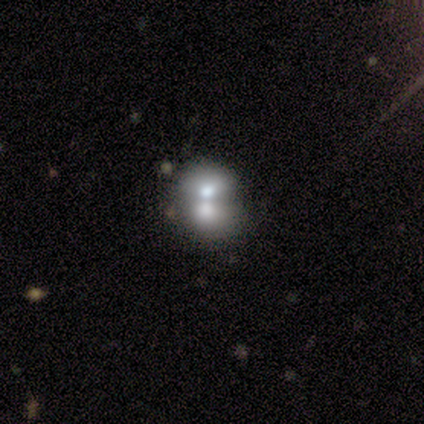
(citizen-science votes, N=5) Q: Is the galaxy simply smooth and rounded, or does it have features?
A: smooth — 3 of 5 (60%).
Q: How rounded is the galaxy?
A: round — 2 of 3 (67%).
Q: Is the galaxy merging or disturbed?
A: merger — 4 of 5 (80%).